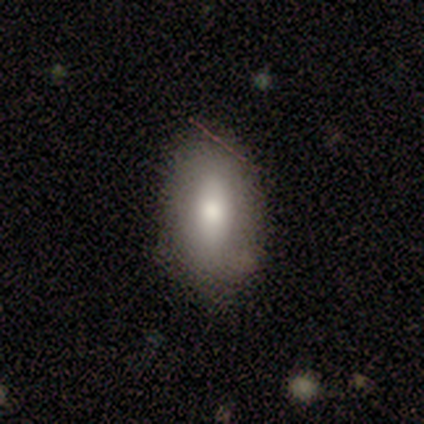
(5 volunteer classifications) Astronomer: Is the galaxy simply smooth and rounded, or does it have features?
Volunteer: smooth — 60%.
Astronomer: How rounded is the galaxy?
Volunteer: in between — 67%.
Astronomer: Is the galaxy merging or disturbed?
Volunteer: minor disturbance — 75%.